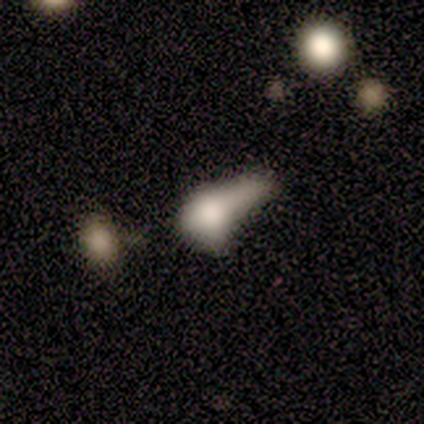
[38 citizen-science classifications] A smooth galaxy with no disk features (63%) that is in between round and cigar-shaped (54%).

Vote fractions:
- Smooth or featured? smooth: 63% / featured or disk: 34% / star or artifact: 3%
- How rounded? in between: 54% / cigar-shaped: 29% / round: 17%
- Merging? merger: 30% / major disturbance: 14% / minor disturbance: 8% / none: 5%